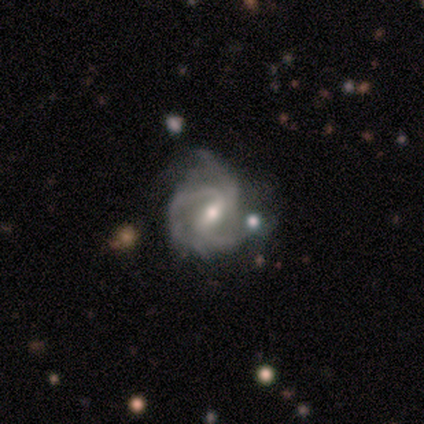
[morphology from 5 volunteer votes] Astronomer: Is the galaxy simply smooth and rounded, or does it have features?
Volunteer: featured or disk — 100%.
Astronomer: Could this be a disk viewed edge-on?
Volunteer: no — 100%.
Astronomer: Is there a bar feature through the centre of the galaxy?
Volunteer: strong — 60% (runner-up: weak, 40%).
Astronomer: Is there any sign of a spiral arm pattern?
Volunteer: yes — 100%.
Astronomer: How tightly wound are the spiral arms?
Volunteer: tight — 60% (runner-up: medium, 40%).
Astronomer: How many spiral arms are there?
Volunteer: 3 — 80%.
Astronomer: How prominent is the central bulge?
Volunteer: moderate — 60% (runner-up: small, 40%).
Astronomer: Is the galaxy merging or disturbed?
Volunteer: none — 60%.